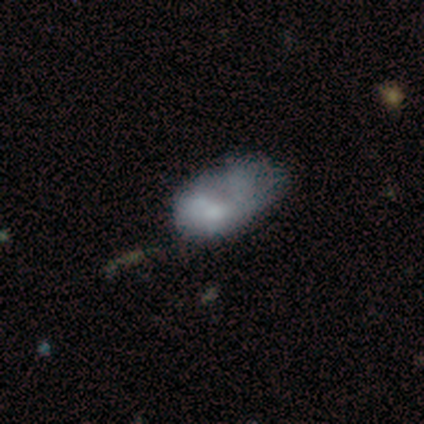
Volunteers were most divided on "merging" (4-way tie): none: 25%, minor disturbance: 25%, major disturbance: 25%, merger: 25%. More confident: smooth or featured — featured or disk (100%); edge-on disk — no (100%); spiral arms — no (100%); bar — no (75%); bulge size — none (75%).